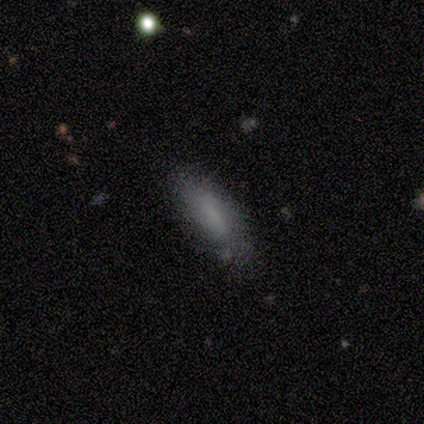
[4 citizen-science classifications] smooth-or-featured: smooth: 100% | featured or disk: 0% | star or artifact: 0%
  how-rounded: cigar-shaped: 75% | in between: 25% | round: 0%
  merging: none: 100% | minor disturbance: 0% | major disturbance: 0% | merger: 0%